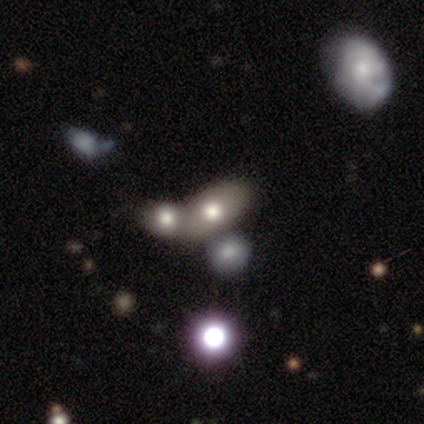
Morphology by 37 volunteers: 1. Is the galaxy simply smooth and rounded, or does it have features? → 76% smooth, 14% star or artifact, 11% featured or disk.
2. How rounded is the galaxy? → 93% in between, 7% round, 0% cigar-shaped.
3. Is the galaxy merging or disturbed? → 53% merger, 0% none, 0% minor disturbance, 0% major disturbance.